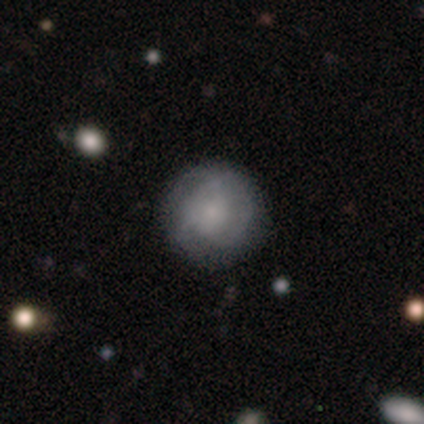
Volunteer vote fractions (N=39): Q: Smooth or featured?
A: smooth (51%); runner-up: featured or disk (49%)
Q: How rounded?
A: round (90%); runner-up: in between (10%)
Q: Merging?
A: none (74%); runner-up: minor disturbance (15%)